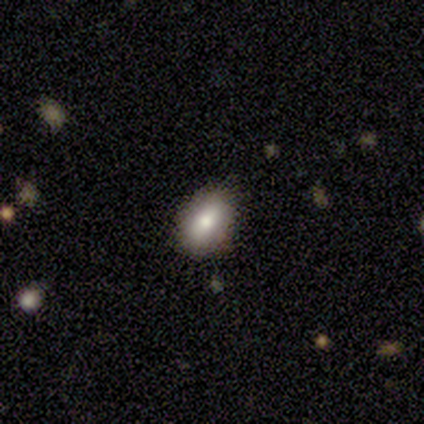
smooth-or-featured: smooth: 67% | featured or disk: 33% | star or artifact: 0%
  how-rounded: in between: 92% | cigar-shaped: 8% | round: 0%
  merging: none: 78% | minor disturbance: 22% | major disturbance: 0% | merger: 0%